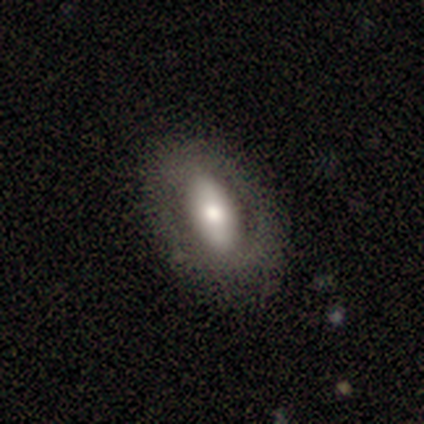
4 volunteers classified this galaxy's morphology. smooth-or-featured: smooth: 75% | featured or disk: 25% | star or artifact: 0%
  how-rounded: in between: 100% | round: 0% | cigar-shaped: 0%
  merging: none: 100% | minor disturbance: 0% | major disturbance: 0% | merger: 0%